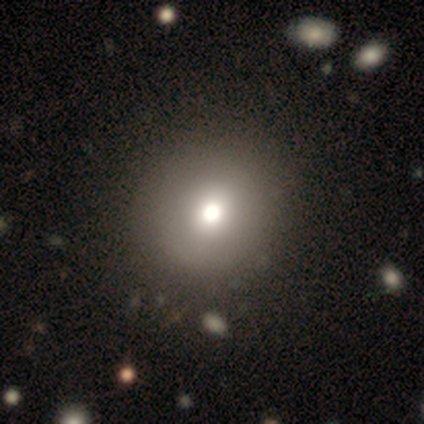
A smooth galaxy with no disk features (75%) that is round (100%).

Vote fractions:
- Smooth or featured? smooth: 75% / star or artifact: 25% / featured or disk: 0%
- How rounded? round: 100% / in between: 0% / cigar-shaped: 0%
- Merging? none: 100% / minor disturbance: 0% / major disturbance: 0% / merger: 0%